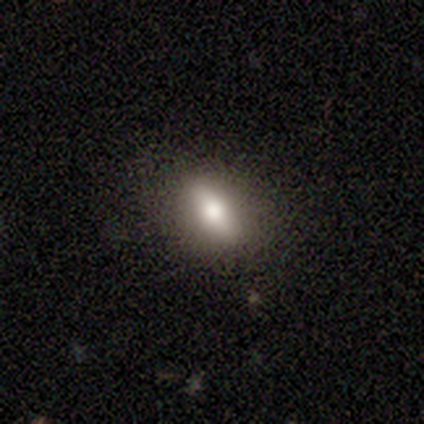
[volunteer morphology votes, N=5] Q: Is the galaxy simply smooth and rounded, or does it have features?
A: smooth — 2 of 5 (40%, tied with featured or disk).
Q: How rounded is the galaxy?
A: round — 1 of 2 (50%, tied with in between).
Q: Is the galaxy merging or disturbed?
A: none — 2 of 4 (50%, tied with minor disturbance).